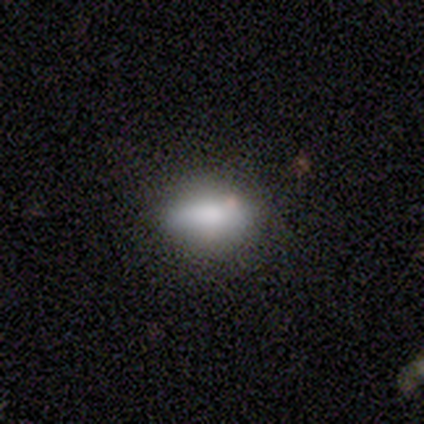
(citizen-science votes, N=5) Volunteers were most divided on "merging": none: 80%, major disturbance: 20%, minor disturbance: 0%, merger: 0%. More confident: smooth or featured — smooth (100%); how rounded — in between (100%).